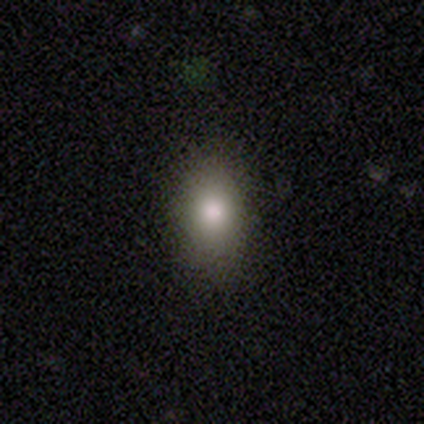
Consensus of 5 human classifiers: Smooth or featured?
  - smooth: 100% *
  - featured or disk: 0%
  - star or artifact: 0%
How rounded?
  - in between: 100% *
  - round: 0%
  - cigar-shaped: 0%
Merging?
  - none: 60% *
  - minor disturbance: 20%
  - major disturbance: 20%
  - merger: 0%